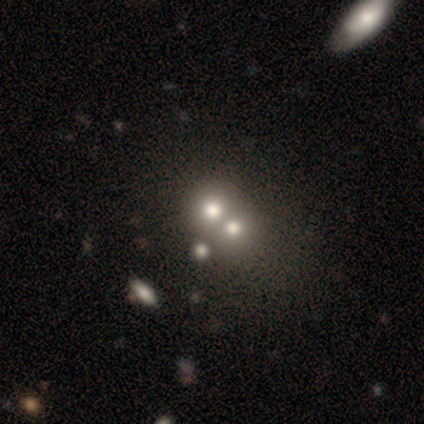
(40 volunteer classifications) This is likely a smooth galaxy (78%). How rounded: clearly round (84%). Merging: likely merger (78%).